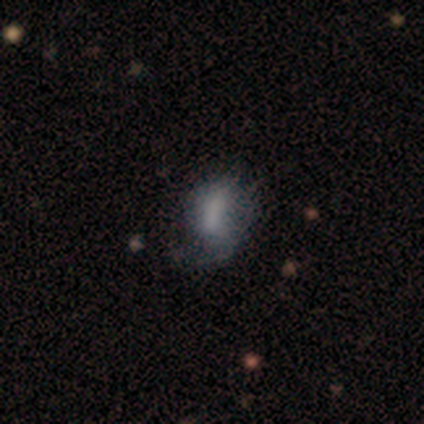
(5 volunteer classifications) Morphology: type=featured or disk (60%); edge-on=no (100%); bar=no (100%); spiral arms=no (67%); bulge=none (67%); merging=minor disturbance (60%).